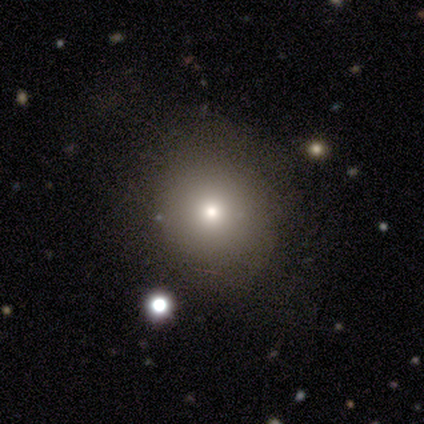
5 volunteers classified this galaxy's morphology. Smooth or featured: smooth — 40% (tied with star or artifact — 40%)
How rounded: round — 100%
Merging: none — 33% (tied with minor disturbance — 33%; merger — 33%)